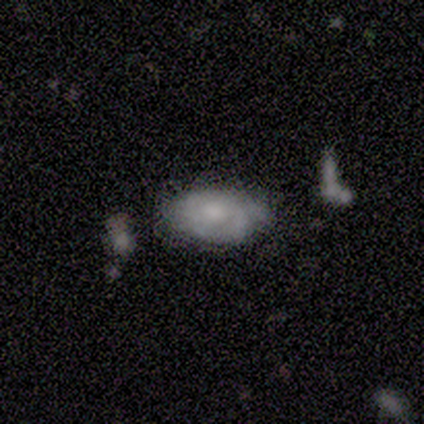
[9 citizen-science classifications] Q: Smooth or featured?
A: star or artifact (44%); runner-up: smooth (33%)